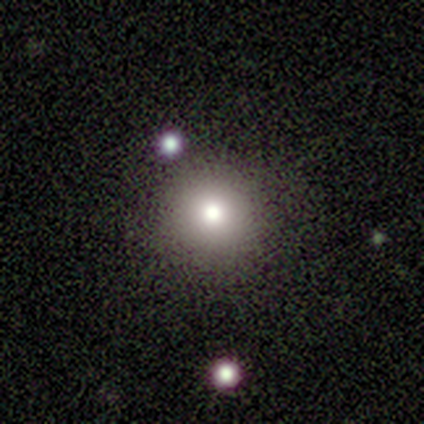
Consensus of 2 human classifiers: Smooth or featured? 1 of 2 (50%, tied with featured or disk) said smooth. How rounded? 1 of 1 (100%) said round. Merging? 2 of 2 (100%) said none.